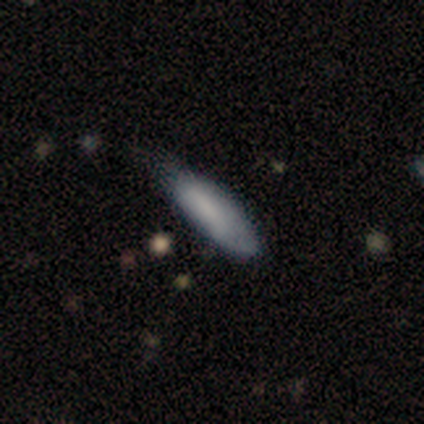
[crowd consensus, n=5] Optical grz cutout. It shows a smooth galaxy with no disk features (80%) that is cigar-shaped (75%). Merging: minor disturbance (40%, tied with major disturbance).